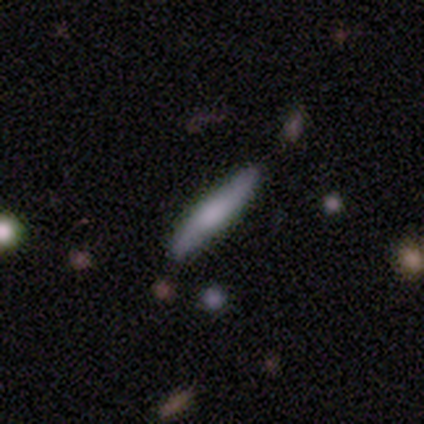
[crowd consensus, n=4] Overall: smooth (75%). How rounded: cigar-shaped (100%). Merging: none (50%, tied with minor disturbance).